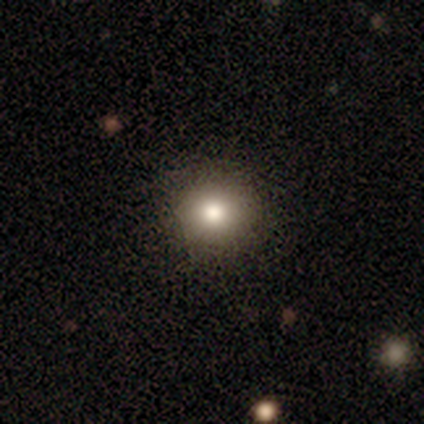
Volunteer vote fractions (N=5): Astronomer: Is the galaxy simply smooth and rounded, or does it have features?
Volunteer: smooth — 60%.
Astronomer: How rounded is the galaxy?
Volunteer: round — 100%.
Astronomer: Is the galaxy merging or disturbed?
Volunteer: none — 100%.